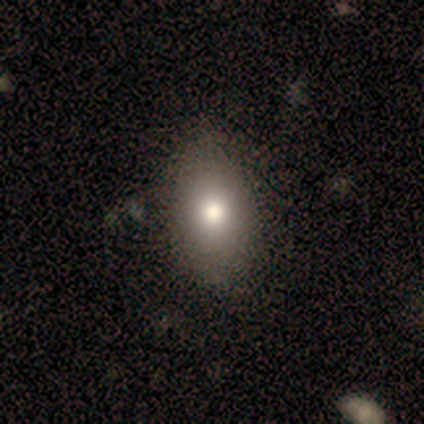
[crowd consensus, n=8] Smooth or featured? 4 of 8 (50%) said smooth. How rounded? 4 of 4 (100%) said in between. Merging? 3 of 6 (50%) said none.